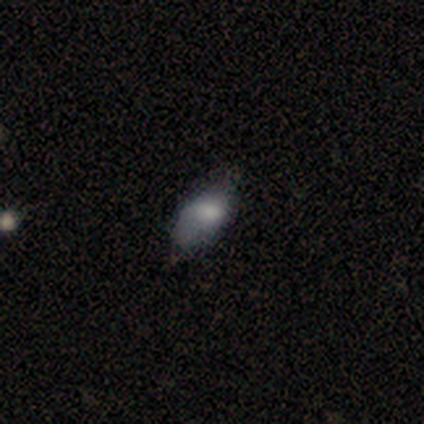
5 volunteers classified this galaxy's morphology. This appears to be a smooth galaxy with no disk features (60%) that is in between round and cigar-shaped (100%). Merging: none (50%).